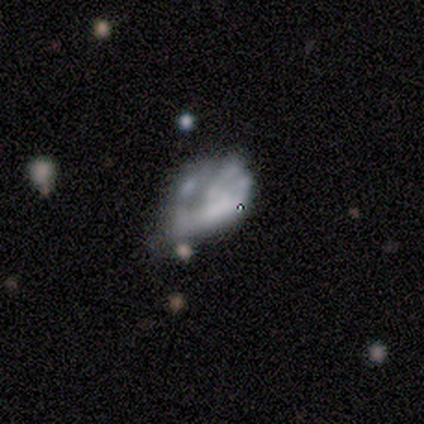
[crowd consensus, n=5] Smooth or featured? 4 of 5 (80%) said featured or disk. Edge-on disk? 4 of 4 (100%) said no. Bar? 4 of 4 (100%) said no. Spiral arms? 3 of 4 (75%) said no. Bulge size? 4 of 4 (100%) said none. Merging? 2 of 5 (40%) said minor disturbance.